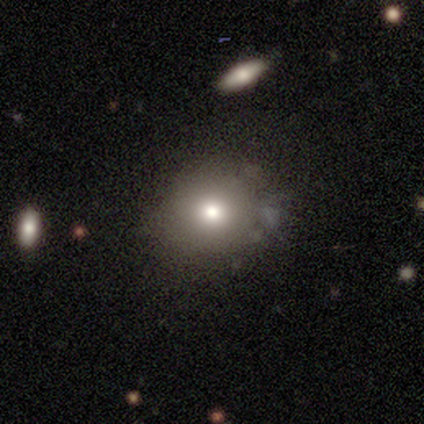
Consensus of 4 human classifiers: Volunteers were most divided on "smooth or featured": smooth: 50%, featured or disk: 25%, star or artifact: 25%. More confident: how rounded — round (100%); merging — none (67%).